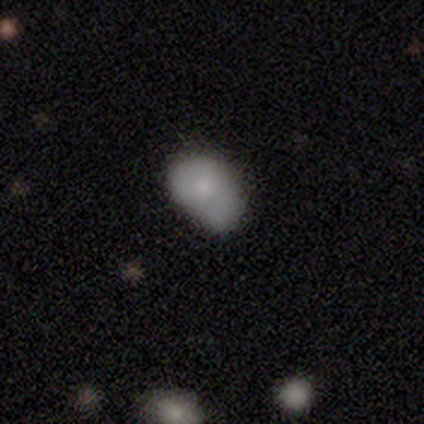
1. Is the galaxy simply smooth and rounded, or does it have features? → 75% smooth, 25% featured or disk, 0% star or artifact.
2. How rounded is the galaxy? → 100% in between, 0% round, 0% cigar-shaped.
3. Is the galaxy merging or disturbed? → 75% minor disturbance, 25% none, 0% major disturbance, 0% merger.